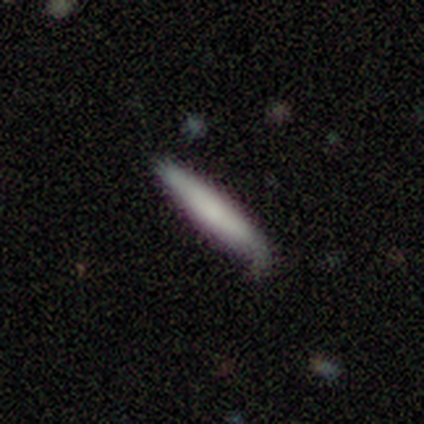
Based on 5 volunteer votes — Smooth or featured? 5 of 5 (100%) said smooth. How rounded? 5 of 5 (100%) said cigar-shaped. Merging? 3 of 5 (60%) said none.